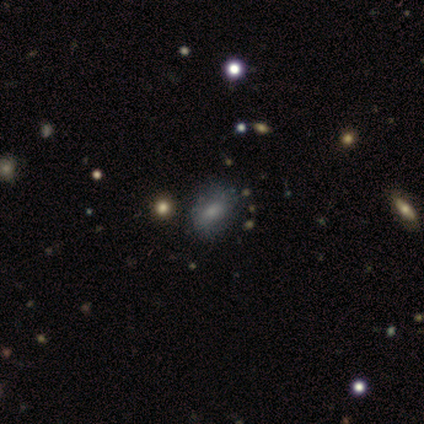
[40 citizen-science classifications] smooth 60%, star or artifact 22%, featured or disk 18%. Down the decision tree: how rounded — in between (71%); merging — none (71%).